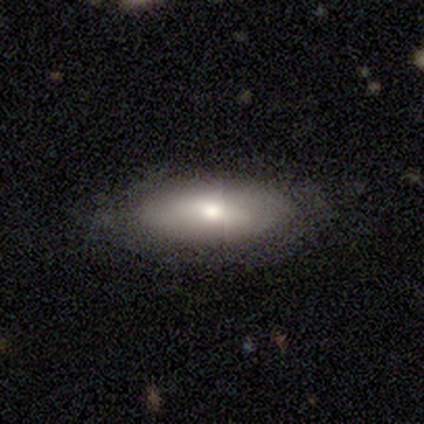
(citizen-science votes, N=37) Smooth or featured: smooth — 86% (featured or disk — 11%)
How rounded: in between — 91% (cigar-shaped — 9%)
Merging: none — 72% (minor disturbance — 17%)